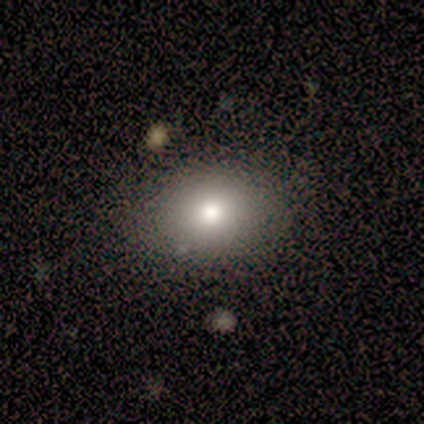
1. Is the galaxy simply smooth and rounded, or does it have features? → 100% smooth, 0% featured or disk, 0% star or artifact.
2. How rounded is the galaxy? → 60% in between, 40% round, 0% cigar-shaped.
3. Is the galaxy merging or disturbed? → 80% none, 20% minor disturbance, 0% major disturbance, 0% merger.